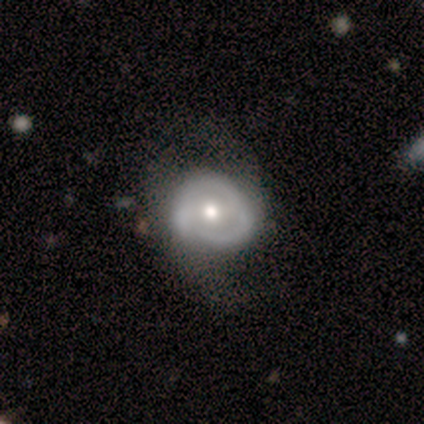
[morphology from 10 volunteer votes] smooth-or-featured: featured or disk: 50% | smooth: 40% | star or artifact: 10%
  disk-edge-on: no: 80% | yes: 20%
    bar: no: 75% | weak: 25% | strong: 0%
    has-spiral-arms: no: 75% | yes: 25%
    bulge-size: moderate: 75% | large: 25% | dominant: 0% | small: 0% | none: 0%
  merging: minor disturbance: 56% | none: 33% | major disturbance: 11% | merger: 0%